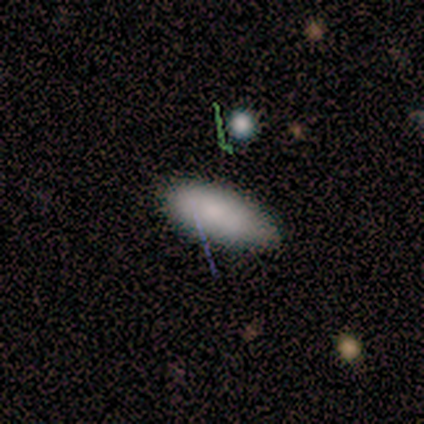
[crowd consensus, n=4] smooth-or-featured: smooth: 100% | featured or disk: 0% | star or artifact: 0%
  how-rounded: in between: 75% | cigar-shaped: 25% | round: 0%
  merging: none: 100% | minor disturbance: 0% | major disturbance: 0% | merger: 0%